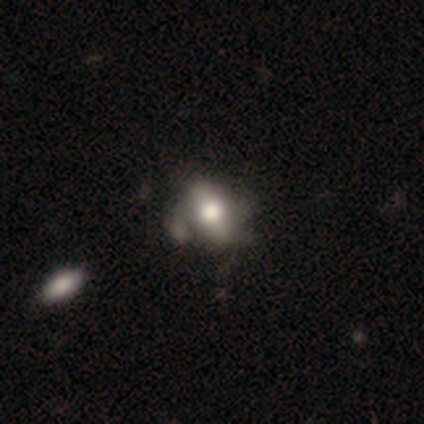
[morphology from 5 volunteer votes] Smooth or featured? 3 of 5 (60%) said featured or disk. Edge-on disk? 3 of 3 (100%) said no. Bar? 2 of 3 (67%) said no. Spiral arms? 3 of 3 (100%) said no. Bulge size? 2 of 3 (67%) said large. Merging? 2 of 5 (40%) said minor disturbance.